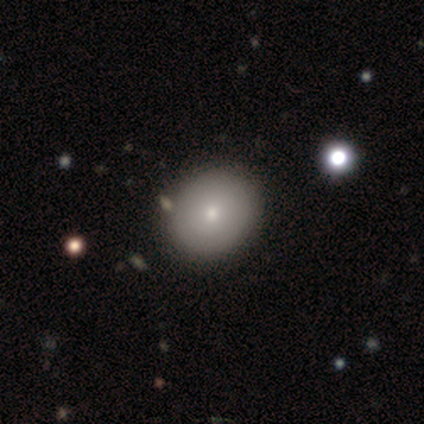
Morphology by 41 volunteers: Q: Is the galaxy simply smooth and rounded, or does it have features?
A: smooth — 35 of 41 (85%).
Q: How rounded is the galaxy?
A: round — 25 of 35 (71%).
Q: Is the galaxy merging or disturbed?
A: none — 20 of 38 (53%).